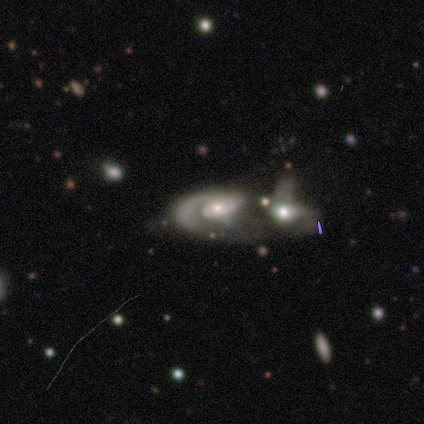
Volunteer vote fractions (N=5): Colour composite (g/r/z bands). It shows a featured or disk galaxy (80%) with no bar (100%), 1 (100%) tight (33%, tied with medium and loose) spiral arms (75%) and a moderate central bulge (75%). Merging: merger (100%).